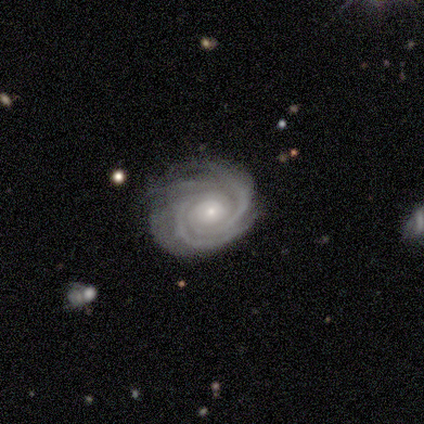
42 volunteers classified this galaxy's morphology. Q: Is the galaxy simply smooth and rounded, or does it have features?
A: featured or disk — 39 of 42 (93%).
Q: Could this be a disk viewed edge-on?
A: no — 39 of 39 (100%).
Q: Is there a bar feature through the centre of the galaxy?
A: no — 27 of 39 (69%).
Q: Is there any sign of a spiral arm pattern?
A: yes — 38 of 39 (97%).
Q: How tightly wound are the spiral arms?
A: tight — 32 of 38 (84%).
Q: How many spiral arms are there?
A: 4 — 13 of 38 (34%).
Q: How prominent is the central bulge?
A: small — 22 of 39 (56%).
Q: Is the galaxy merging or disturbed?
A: none — 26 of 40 (65%).